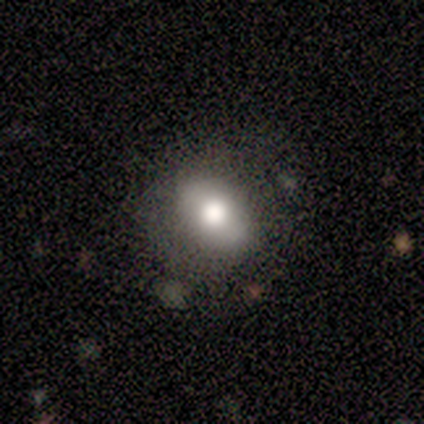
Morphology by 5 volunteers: Smooth or featured?
  - smooth: 80% *
  - featured or disk: 20%
  - star or artifact: 0%
How rounded?
  - round: 75% *
  - in between: 25%
  - cigar-shaped: 0%
Merging?
  - none: 100% *
  - minor disturbance: 0%
  - major disturbance: 0%
  - merger: 0%